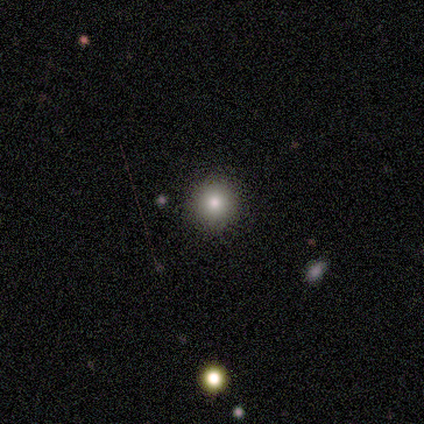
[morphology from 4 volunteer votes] Overall: smooth (50%; featured or disk 25%). How rounded: round (100%). Merging: none (100%).